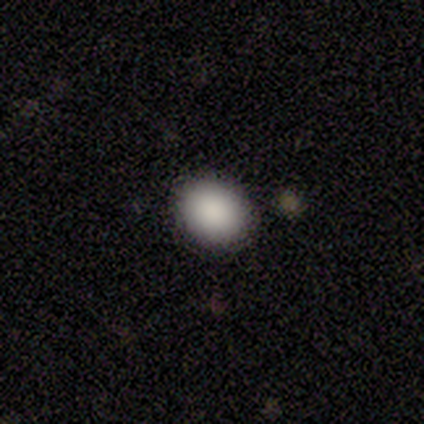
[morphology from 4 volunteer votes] Smooth or featured: smooth — 75% (star or artifact — 25%)
How rounded: in between — 100%
Merging: none — 100%